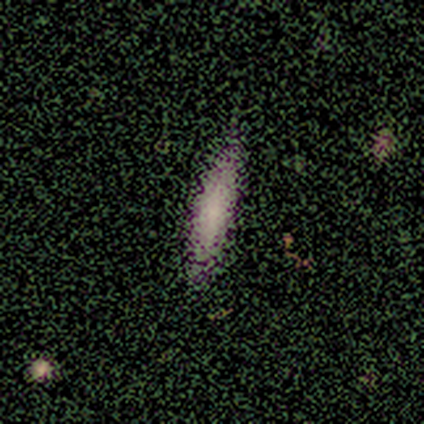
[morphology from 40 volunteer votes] Smooth or featured? 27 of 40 (68%) said smooth. How rounded? 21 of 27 (78%) said cigar-shaped. Merging? 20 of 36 (56%) said none.